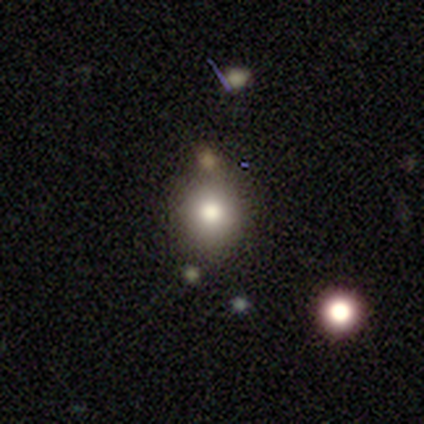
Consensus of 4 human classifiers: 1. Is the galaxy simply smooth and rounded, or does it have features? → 100% smooth, 0% featured or disk, 0% star or artifact.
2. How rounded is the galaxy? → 100% round, 0% in between, 0% cigar-shaped.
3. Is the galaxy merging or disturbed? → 75% none, 25% minor disturbance, 0% major disturbance, 0% merger.